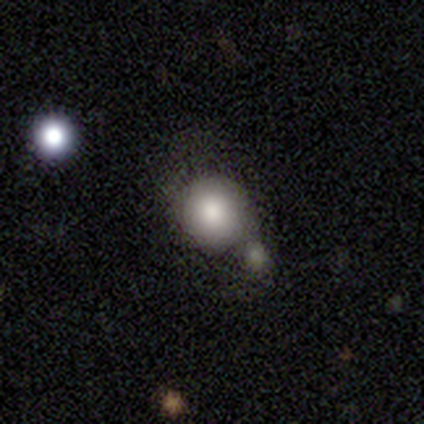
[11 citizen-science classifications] Smooth or featured: smooth — 73% (featured or disk — 18%)
How rounded: round — 88% (in between — 12%)
Merging: none — 40% (tied with merger — 40%)